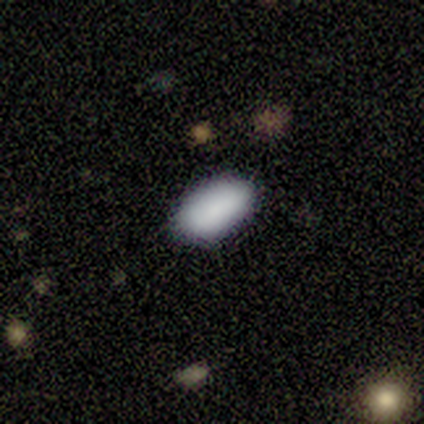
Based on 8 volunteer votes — smooth-or-featured: smooth: 88% | featured or disk: 12% | star or artifact: 0%
  how-rounded: in between: 100% | round: 0% | cigar-shaped: 0%
  merging: none: 100% | minor disturbance: 0% | major disturbance: 0% | merger: 0%